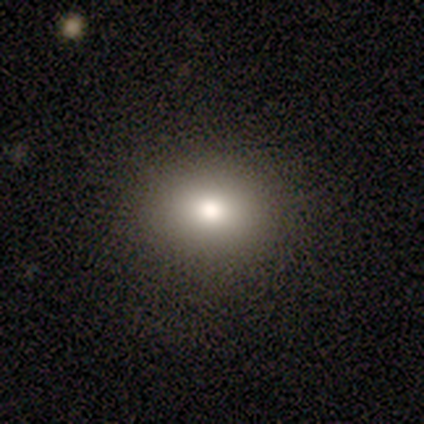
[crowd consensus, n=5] This is clearly a smooth galaxy (100%). How rounded: clearly round (80%). Merging: clearly none (100%).